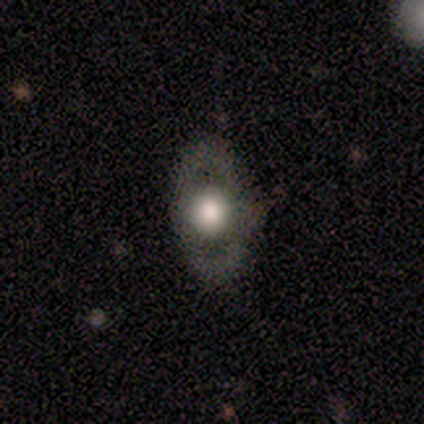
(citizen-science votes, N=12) smooth 58%, featured or disk 33%, star or artifact 8%. Down the decision tree: how rounded — in between (86%); merging — none (91%).